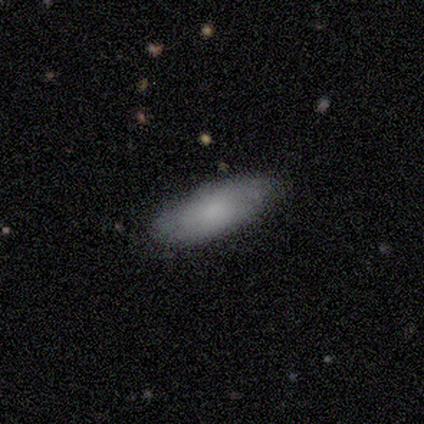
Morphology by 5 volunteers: Smooth or featured?
  - smooth: 80% *
  - star or artifact: 20%
  - featured or disk: 0%
How rounded?
  - in between: 100% *
  - round: 0%
  - cigar-shaped: 0%
Merging?
  - none: 75% *
  - minor disturbance: 25%
  - major disturbance: 0%
  - merger: 0%